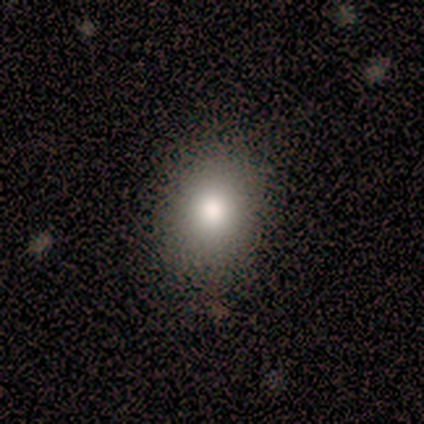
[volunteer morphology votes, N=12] A smooth galaxy with no disk features (75%) that is in between round and cigar-shaped (56%).

Vote fractions:
- Smooth or featured? smooth: 75% / star or artifact: 17% / featured or disk: 8%
- How rounded? in between: 56% / round: 44% / cigar-shaped: 0%
- Merging? none: 90% / minor disturbance: 10% / major disturbance: 0% / merger: 0%